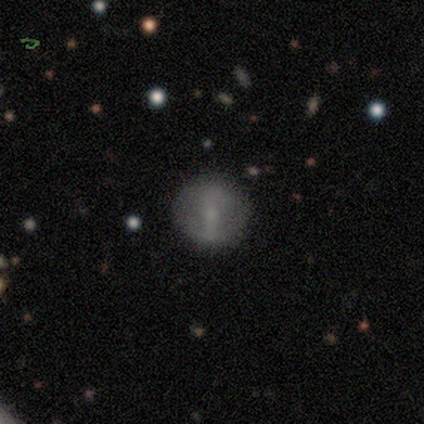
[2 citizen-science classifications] A smooth galaxy with no disk features (100%) that is round (100%).

Vote fractions:
- Smooth or featured? smooth: 100% / featured or disk: 0% / star or artifact: 0%
- How rounded? round: 100% / in between: 0% / cigar-shaped: 0%
- Merging? none: 50% (tied) / minor disturbance: 50% (tied) / major disturbance: 0% / merger: 0%